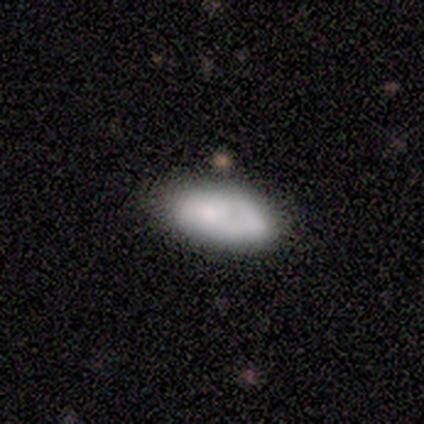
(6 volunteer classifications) Overall: smooth (83%). How rounded: in between (80%). Merging: none (83%).